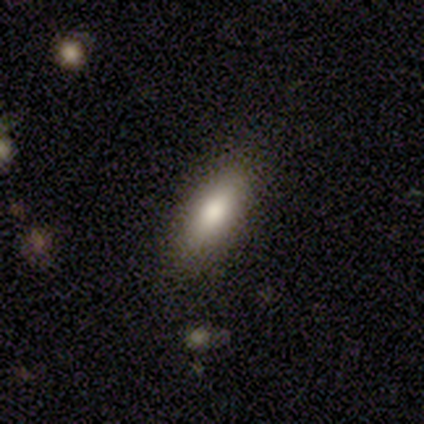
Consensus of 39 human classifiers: Q: Smooth or featured?
A: smooth (79%); runner-up: featured or disk (13%)
Q: How rounded?
A: in between (71%); runner-up: cigar-shaped (29%)
Q: Merging?
A: none (86%); runner-up: minor disturbance (11%)